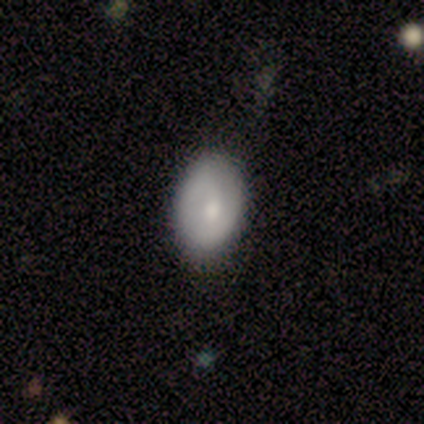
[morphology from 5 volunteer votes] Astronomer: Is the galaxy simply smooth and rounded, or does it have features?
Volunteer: featured or disk — 80%.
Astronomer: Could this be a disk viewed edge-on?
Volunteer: no — 100%.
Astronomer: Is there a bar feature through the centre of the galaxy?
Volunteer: weak — 50%, tied with no at 50%.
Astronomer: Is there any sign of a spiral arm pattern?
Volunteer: no — 75%.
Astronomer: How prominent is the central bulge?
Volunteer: moderate — 75%.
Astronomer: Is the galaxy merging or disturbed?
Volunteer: none — 100%.